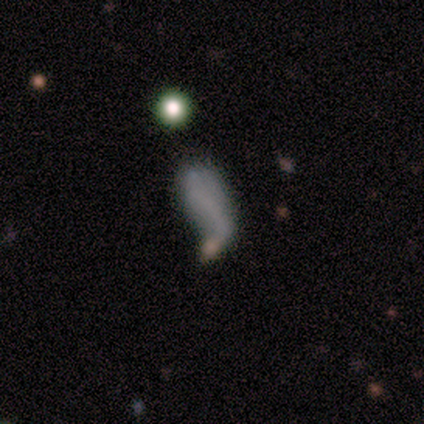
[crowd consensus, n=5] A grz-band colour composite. It shows a featured or disk galaxy (40%, tied with star or artifact) with no bar (100%), no spiral arms (100%) and no central bulge (100%). Merging: none (33%, tied with minor disturbance and major disturbance).